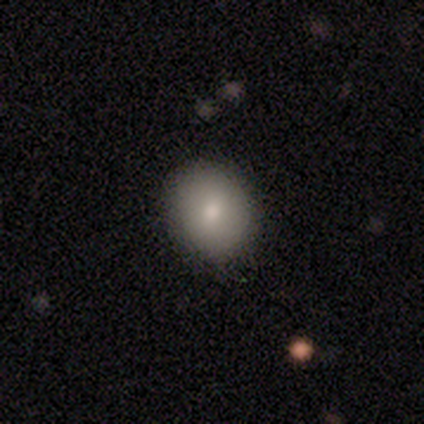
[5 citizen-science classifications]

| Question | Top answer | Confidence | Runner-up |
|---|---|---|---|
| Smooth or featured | smooth | 40% | tied: star or artifact (40%) |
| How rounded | round | 50% | tied: in between (50%) |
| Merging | none | 67% | minor disturbance (33%) |